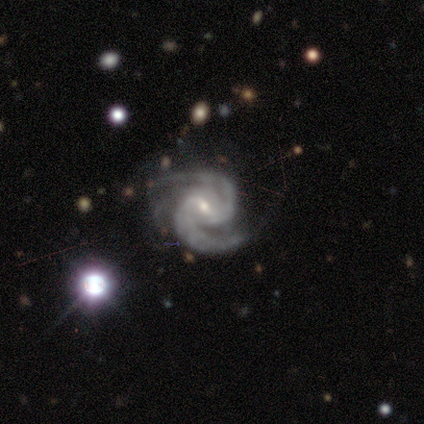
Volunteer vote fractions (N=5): Smooth or featured? 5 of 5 (100%) said featured or disk. Edge-on disk? 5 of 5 (100%) said no. Bar? 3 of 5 (60%) said weak. Spiral arms? 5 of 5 (100%) said yes. Spiral winding? 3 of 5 (60%) said medium. Spiral arm count? 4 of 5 (80%) said 2. Bulge size? 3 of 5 (60%) said small. Merging? 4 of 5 (80%) said none.